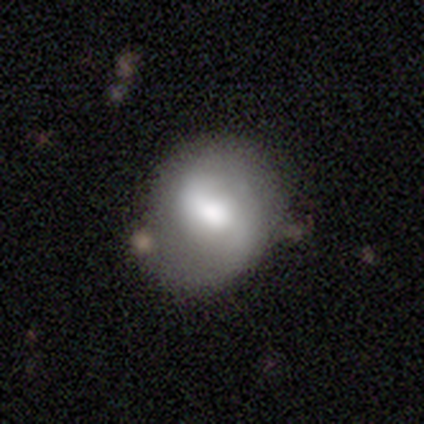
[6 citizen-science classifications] This appears to be a smooth galaxy with no disk features (67%) that is round (100%). Merging: none (83%).